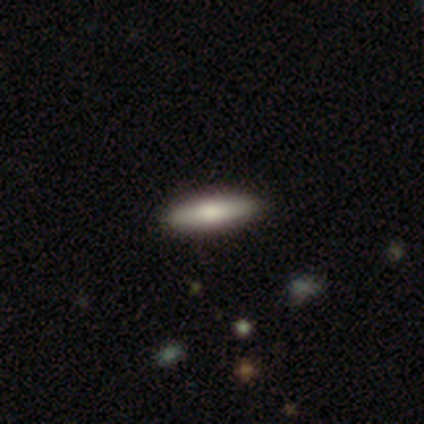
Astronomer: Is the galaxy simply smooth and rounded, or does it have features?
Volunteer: smooth — 80%.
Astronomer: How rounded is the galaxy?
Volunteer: cigar-shaped — 75%.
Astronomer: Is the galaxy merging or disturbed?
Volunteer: none — 60% (runner-up: minor disturbance, 40%).